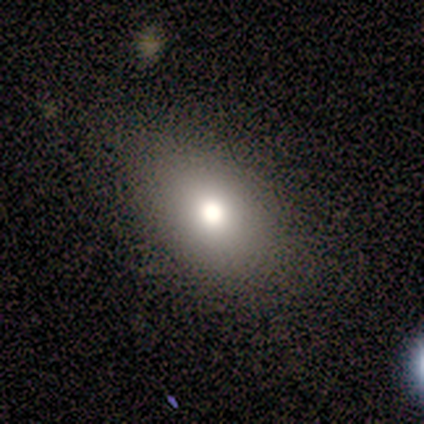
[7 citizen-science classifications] Smooth or featured? 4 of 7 (57%) said smooth. How rounded? 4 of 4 (100%) said in between. Merging? 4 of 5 (80%) said none.